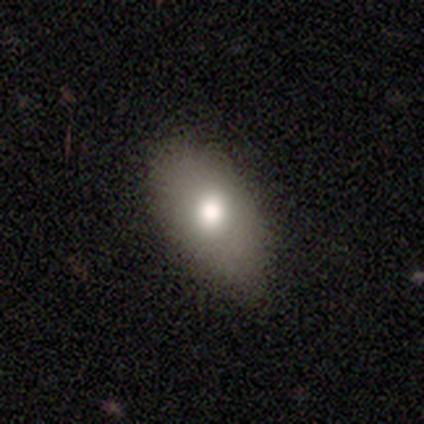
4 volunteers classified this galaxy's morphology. Volunteers were most divided on "how rounded": in between: 67%, round: 33%, cigar-shaped: 0%. More confident: merging — none (100%); smooth or featured — smooth (75%).